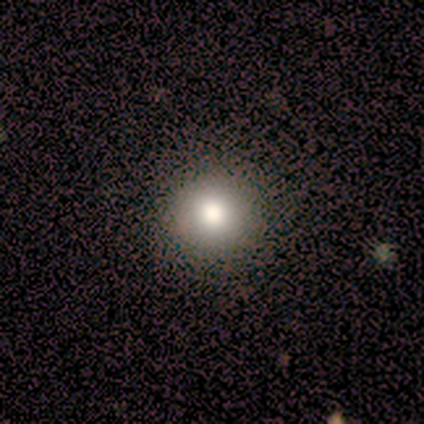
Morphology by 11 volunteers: type=smooth (82%); roundness=round (100%); merging=none (90%).